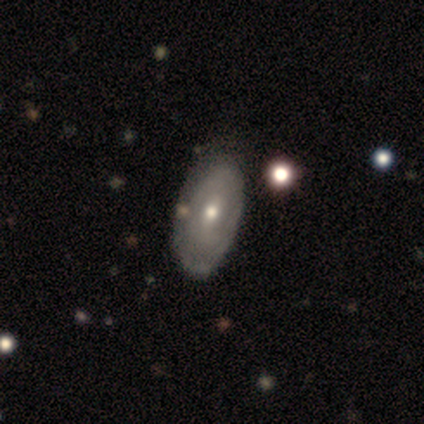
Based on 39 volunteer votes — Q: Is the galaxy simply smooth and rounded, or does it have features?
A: featured or disk — 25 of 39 (64%).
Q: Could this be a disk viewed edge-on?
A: no — 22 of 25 (88%).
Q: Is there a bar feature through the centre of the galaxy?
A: weak — 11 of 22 (50%, tied with no).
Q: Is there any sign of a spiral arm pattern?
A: no — 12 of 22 (55%).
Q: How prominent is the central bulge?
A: moderate — 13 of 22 (59%).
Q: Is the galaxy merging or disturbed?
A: none — 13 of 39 (33%).